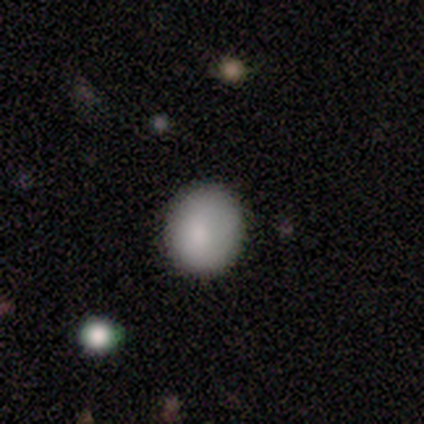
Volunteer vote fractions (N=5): smooth_or_featured: smooth (p=1.00)
how_rounded: round (p=0.80) [alt: in between p=0.20]
merging: none (p=1.00)